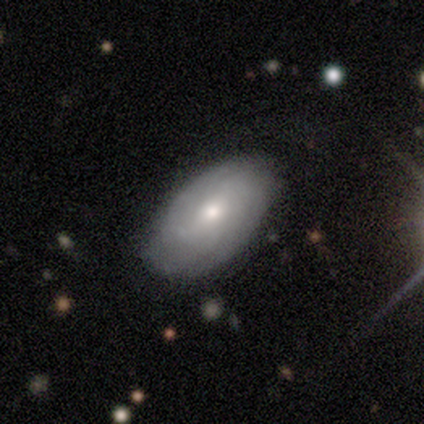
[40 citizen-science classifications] A featured or disk galaxy (55%) with no bar (60%), tight (67%) spiral arms (90%) and a moderate central bulge (70%). Merging: none (87%).